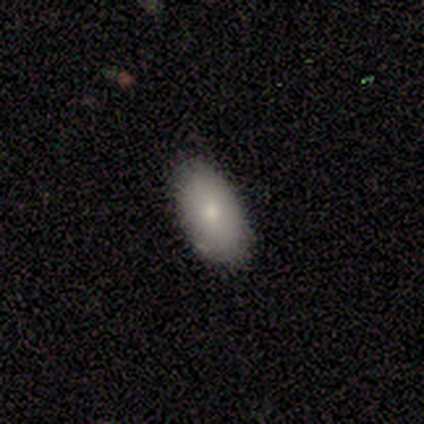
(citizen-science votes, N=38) Smooth or featured: smooth — 79% (featured or disk — 13%)
How rounded: in between — 90% (round — 7%)
Merging: none — 89% (minor disturbance — 9%)